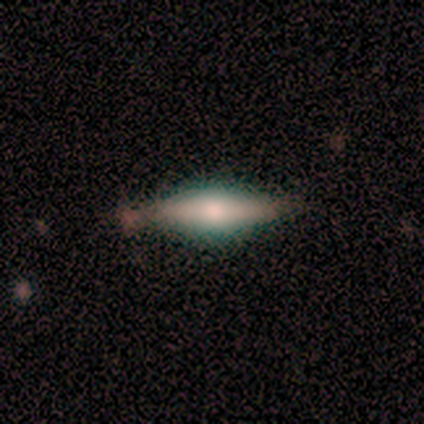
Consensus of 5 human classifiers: smooth-or-featured: smooth: 60% | featured or disk: 20% | star or artifact: 20%
  how-rounded: in between: 67% | cigar-shaped: 33% | round: 0%
  merging: none: 75% | minor disturbance: 25% | major disturbance: 0% | merger: 0%